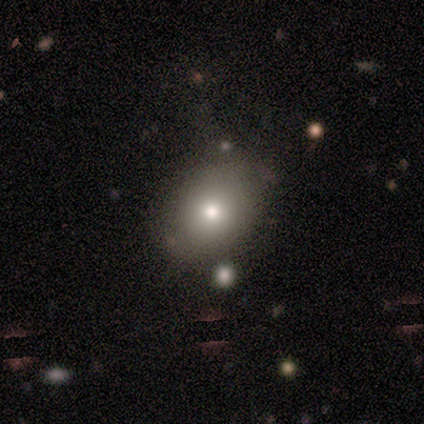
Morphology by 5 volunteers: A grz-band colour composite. It shows a smooth galaxy with no disk features (60%) that is round (67%). Merging: none (67%).